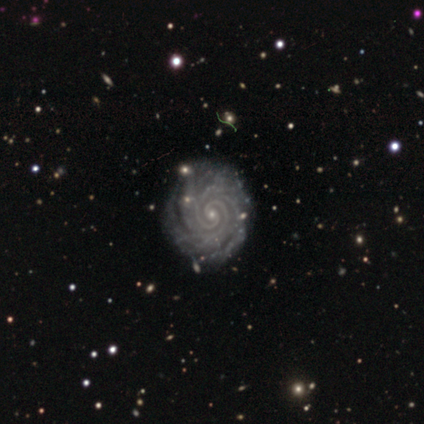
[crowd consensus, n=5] smooth-or-featured: featured or disk: 100% | smooth: 0% | star or artifact: 0%
  disk-edge-on: no: 100% | yes: 0%
    bar: no: 100% | strong: 0% | weak: 0%
    has-spiral-arms: yes: 100% | no: 0%
      spiral-winding: tight: 100% | medium: 0% | loose: 0%
      spiral-arm-count: 2: 60% | 4: 40% | 1: 0% | 3: 0% | more than 4: 0% | can't tell: 0%
    bulge-size: small: 100% | dominant: 0% | large: 0% | moderate: 0% | none: 0%
  merging: none: 100% | minor disturbance: 0% | major disturbance: 0% | merger: 0%